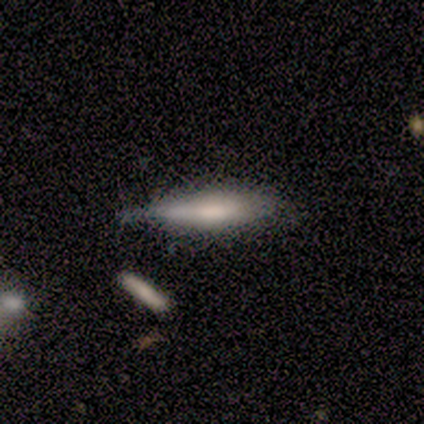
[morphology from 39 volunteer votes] A smooth galaxy with no disk features (72%) that is cigar-shaped (71%). Merging: minor disturbance (57%).